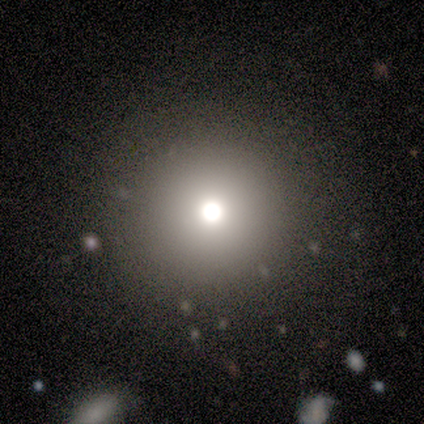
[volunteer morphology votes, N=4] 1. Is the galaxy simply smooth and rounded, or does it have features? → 75% smooth, 25% star or artifact, 0% featured or disk.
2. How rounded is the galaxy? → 100% round, 0% in between, 0% cigar-shaped.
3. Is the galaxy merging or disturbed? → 100% none, 0% minor disturbance, 0% major disturbance, 0% merger.